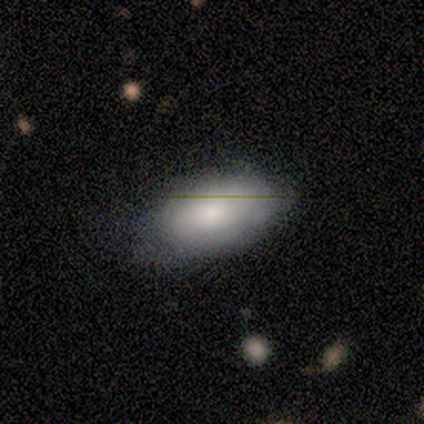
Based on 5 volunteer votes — Smooth or featured? 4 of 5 (80%) said smooth. How rounded? 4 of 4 (100%) said in between. Merging? 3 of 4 (75%) said none.